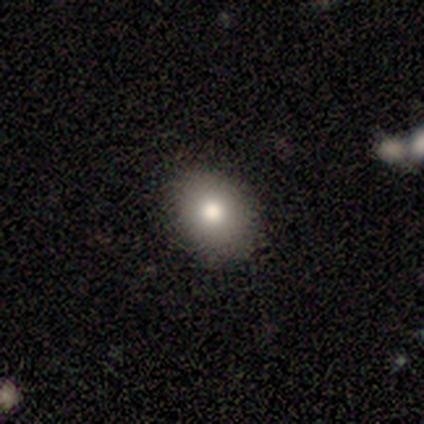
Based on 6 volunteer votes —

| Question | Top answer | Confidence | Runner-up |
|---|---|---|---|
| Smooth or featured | smooth | 100% | — |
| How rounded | in between | 83% | round (17%) |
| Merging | none | 100% | — |